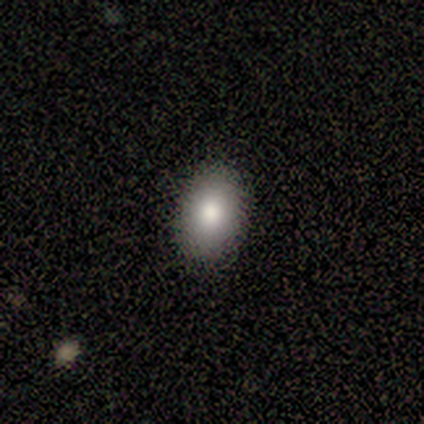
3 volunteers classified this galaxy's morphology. Smooth or featured? smooth (100%)
How rounded? in between (100%)
Merging? none (100%)